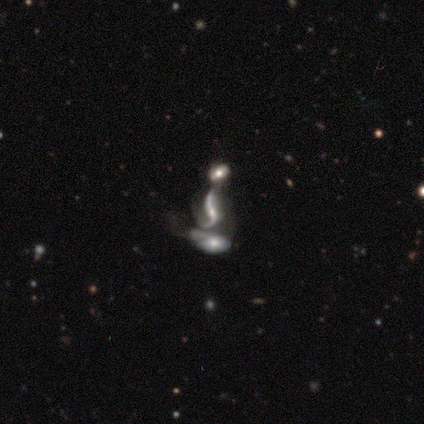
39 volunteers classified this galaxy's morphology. featured or disk 74%, star or artifact 18%, smooth 8%. Down the decision tree: edge-on disk — no (97%); bar — no (46%); spiral arms — yes (79%); spiral arm count — 2 (91%); spiral winding — loose (95%); bulge size — small (57%); merging — merger (72%).